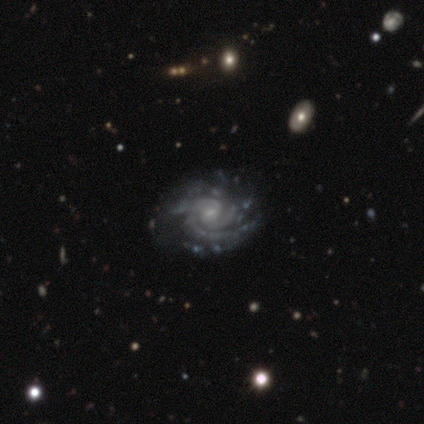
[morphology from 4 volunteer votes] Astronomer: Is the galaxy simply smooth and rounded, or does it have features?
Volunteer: featured or disk — 100%.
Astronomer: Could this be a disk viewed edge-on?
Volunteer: no — 100%.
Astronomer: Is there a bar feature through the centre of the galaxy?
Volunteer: no — 75%.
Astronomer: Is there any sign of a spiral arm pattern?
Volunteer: yes — 100%.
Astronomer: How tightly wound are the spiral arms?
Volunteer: tight — 50%, tied with medium at 50%.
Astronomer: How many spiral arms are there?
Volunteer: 2 — 25%, tied with 3, 4 and can't tell at 25%.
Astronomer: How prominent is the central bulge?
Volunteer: moderate — 50%, tied with small at 50%.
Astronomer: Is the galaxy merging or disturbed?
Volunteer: none — 75%.